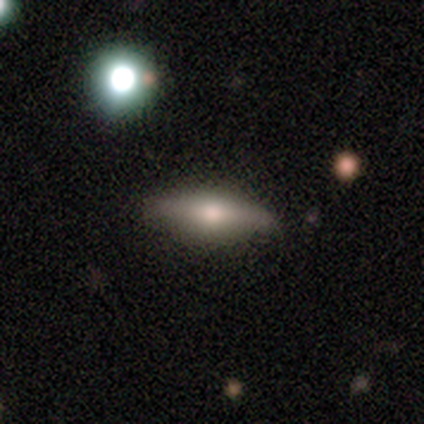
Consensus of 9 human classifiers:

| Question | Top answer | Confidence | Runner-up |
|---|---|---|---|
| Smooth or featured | smooth | 56% | featured or disk (33%) |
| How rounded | cigar-shaped | 60% | in between (40%) |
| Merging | none | 100% | — |